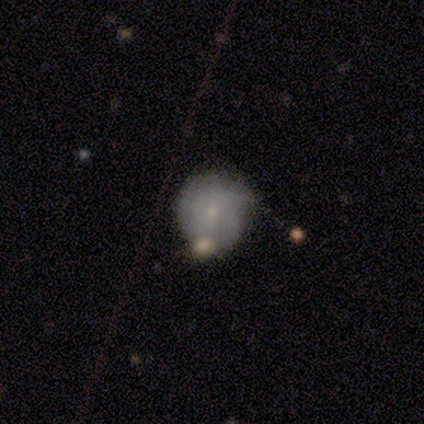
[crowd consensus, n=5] Q: Smooth or featured?
A: featured or disk (60%); runner-up: smooth (40%)
Q: Edge-on disk?
A: no (100%)
Q: Bar?
A: no (100%)
Q: Spiral arms?
A: yes (67%); runner-up: no (33%)
Q: Spiral winding?
A: tight (50%); tied with: medium (50%)
Q: Spiral arm count?
A: 1 (50%); tied with: can't tell (50%)
Q: Bulge size?
A: small (100%)
Q: Merging?
A: minor disturbance (60%); runner-up: none (40%)